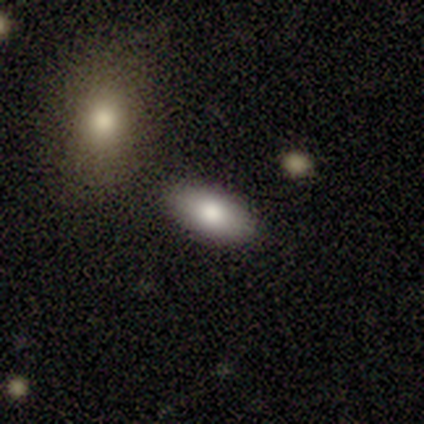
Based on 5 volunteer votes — A smooth galaxy with no disk features (60%) that is in between round and cigar-shaped (100%). Merging: none (100%).